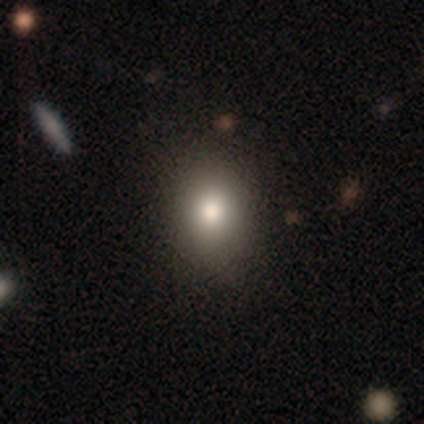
smooth-or-featured: smooth: 92% | star or artifact: 5% | featured or disk: 2%
  how-rounded: in between: 59% | round: 41% | cigar-shaped: 0%
  merging: none: 61% | minor disturbance: 8% | major disturbance: 3% | merger: 3%